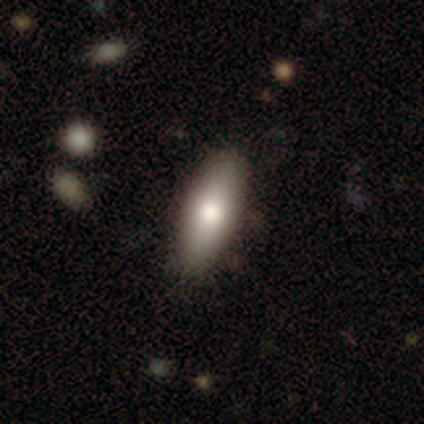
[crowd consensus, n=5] This is clearly a smooth galaxy (80%). How rounded: likely in between (75%). Merging: clearly none (100%).